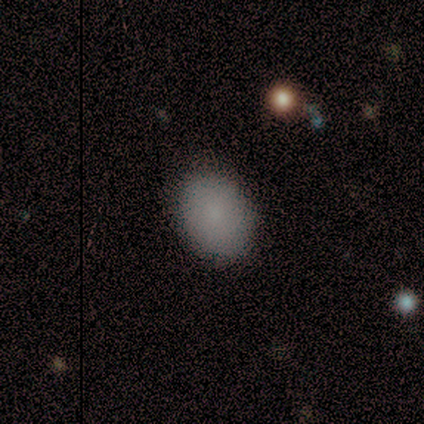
Volunteers were most divided on "how rounded": in between: 82%, round: 18%, cigar-shaped: 0%. More confident: merging — none (95%); smooth or featured — smooth (85%).